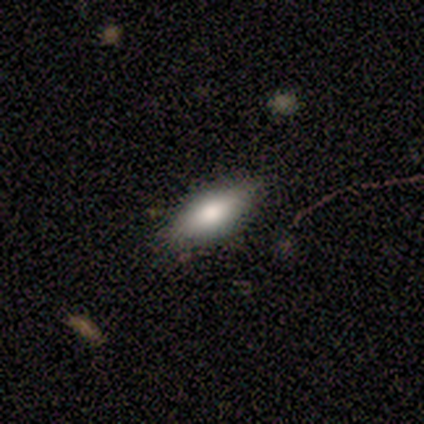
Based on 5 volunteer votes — Q: Smooth or featured?
A: smooth (80%); runner-up: star or artifact (20%)
Q: How rounded?
A: in between (50%); tied with: cigar-shaped (50%)
Q: Merging?
A: none (75%); runner-up: minor disturbance (25%)